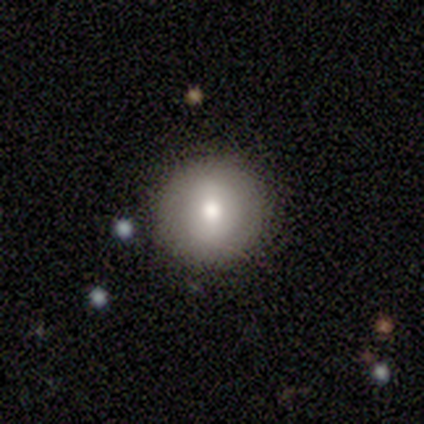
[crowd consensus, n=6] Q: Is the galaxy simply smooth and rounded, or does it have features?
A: smooth — 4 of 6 (67%).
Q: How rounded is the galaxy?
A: round — 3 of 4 (75%).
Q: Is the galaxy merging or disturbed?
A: none — 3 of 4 (75%).